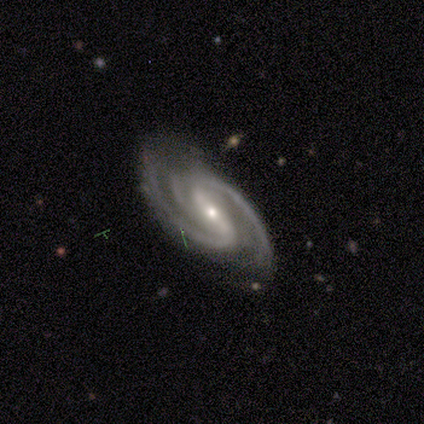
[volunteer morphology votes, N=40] Volunteers were most divided on "spiral arm count": 2: 63%, 3: 34%, 4: 3%, 1: 0%, more than 4: 0%, can't tell: 0%. More confident: smooth or featured — featured or disk (100%); edge-on disk — no (98%); spiral arms — yes (97%); merging — none (78%); bar — strong (72%); bulge size — small (67%); spiral winding — medium (66%).